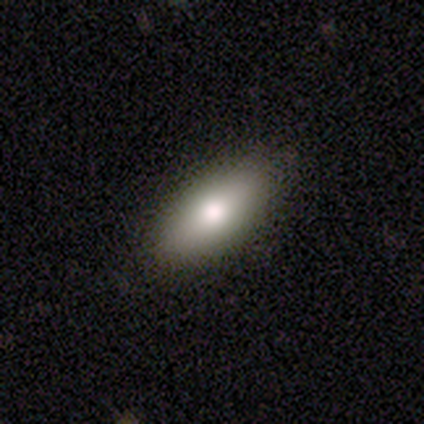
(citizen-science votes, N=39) Overall: smooth (62%; featured or disk 23%). How rounded: in between (79%). Merging: none (97%).